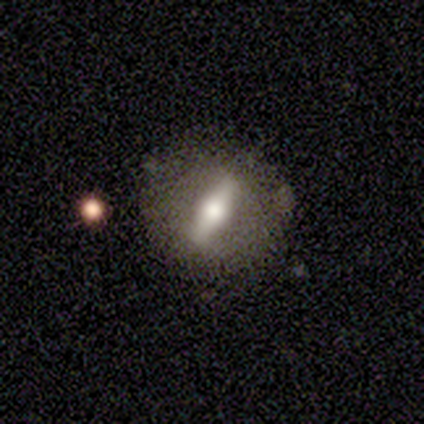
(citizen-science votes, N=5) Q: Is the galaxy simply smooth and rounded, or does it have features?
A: featured or disk — 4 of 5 (80%).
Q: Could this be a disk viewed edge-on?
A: yes — 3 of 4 (75%).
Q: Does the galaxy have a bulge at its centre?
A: rounded — 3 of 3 (100%).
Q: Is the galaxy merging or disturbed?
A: none — 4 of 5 (80%).